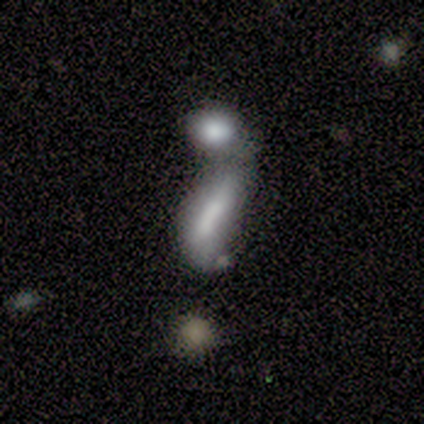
smooth-or-featured: featured or disk: 80% | smooth: 20% | star or artifact: 0%
  disk-edge-on: no: 75% | yes: 25%
    bar: strong: 33% (tied) | weak: 33% (tied) | no: 33% (tied)
    has-spiral-arms: no: 100% | yes: 0%
    bulge-size: small: 67% | none: 33% | dominant: 0% | large: 0% | moderate: 0%
  merging: major disturbance: 60% | minor disturbance: 20% | merger: 20% | none: 0%